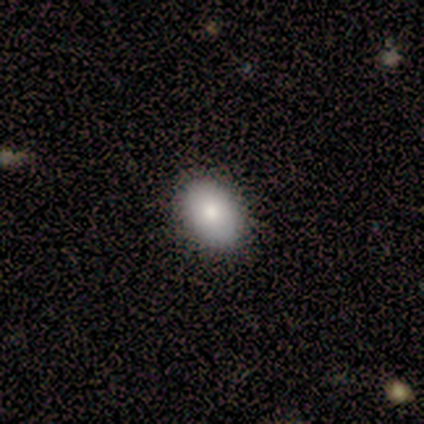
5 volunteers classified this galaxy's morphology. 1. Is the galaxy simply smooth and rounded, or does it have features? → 80% smooth, 20% featured or disk, 0% star or artifact.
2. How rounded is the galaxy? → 75% in between, 25% round, 0% cigar-shaped.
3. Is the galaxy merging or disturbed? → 80% none, 20% minor disturbance, 0% major disturbance, 0% merger.